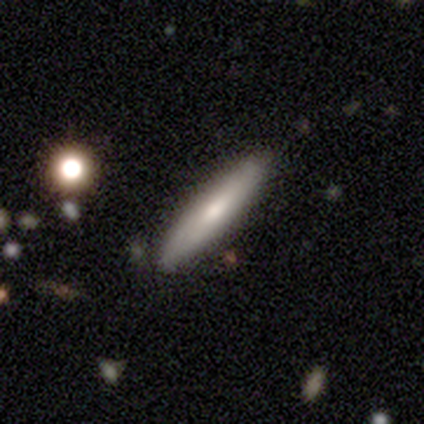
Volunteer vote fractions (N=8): smooth_or_featured: smooth (p=0.62) [alt: featured or disk p=0.38]
how_rounded: cigar-shaped (p=0.80) [alt: in between p=0.20]
merging: none (p=0.88) [alt: minor disturbance p=0.12]